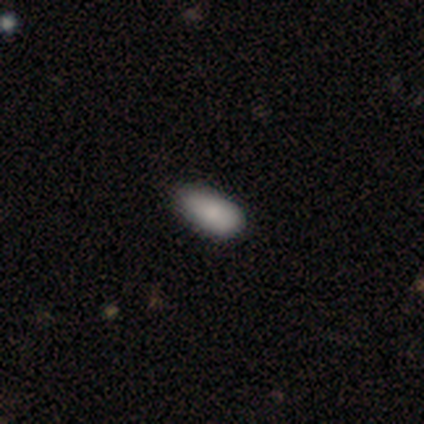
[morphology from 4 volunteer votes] This is likely a smooth galaxy (75%). How rounded: clearly in between (100%). Merging: likely minor disturbance (75%).